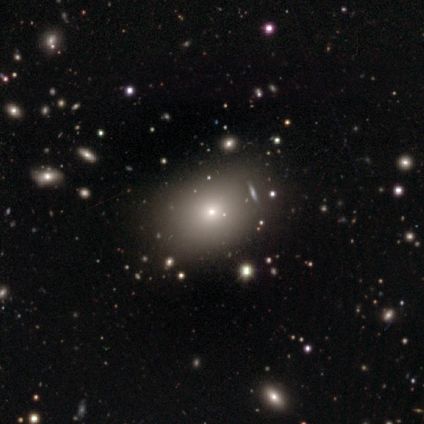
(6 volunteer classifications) Overall: smooth (83%). How rounded: in between (80%). Merging: none (80%).